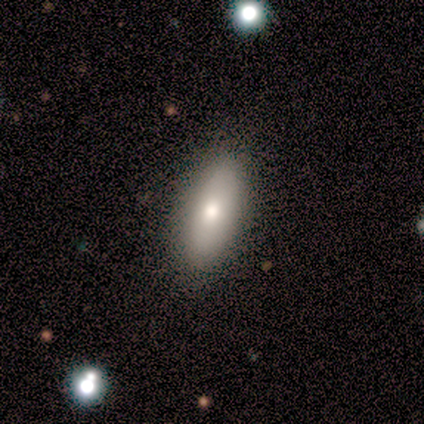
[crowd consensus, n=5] A smooth galaxy with no disk features (40%, tied with featured or disk) that is in between round and cigar-shaped (100%). Merging: none (100%).